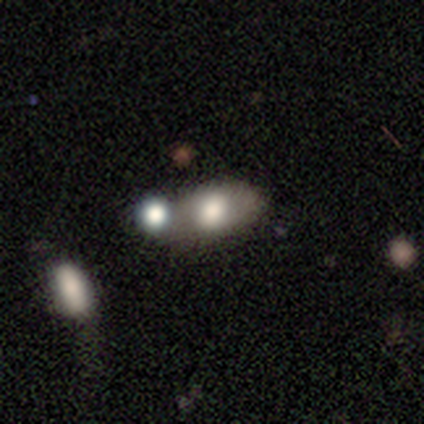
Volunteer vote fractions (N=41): Smooth or featured? 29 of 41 (71%) said smooth. How rounded? 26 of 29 (90%) said in between. Merging? 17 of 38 (45%) said merger.